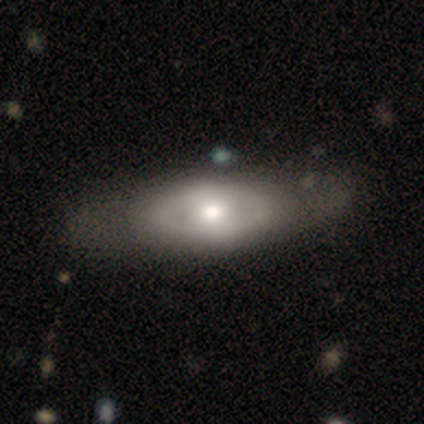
smooth_or_featured: featured or disk (p=0.56) [alt: smooth p=0.44]
disk_edge_on: no (p=1.00)
bar: no (p=0.73) [alt: weak p=0.23]
has_spiral_arms: no (p=0.95) [alt: yes p=0.05]
bulge_size: moderate (p=0.64) [alt: small p=0.23]
merging: none (p=0.67) [alt: minor disturbance p=0.13]